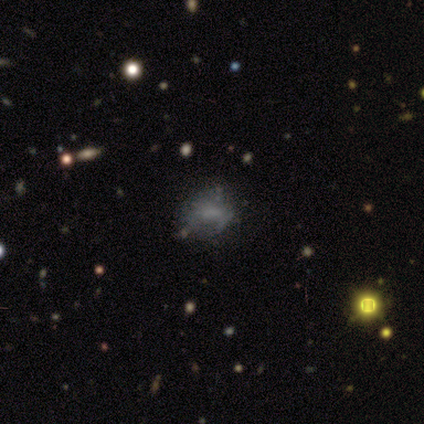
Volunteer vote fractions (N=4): Overall: smooth (75%). How rounded: in between (67%; round 33%). Merging: minor disturbance (67%; major disturbance 33%).